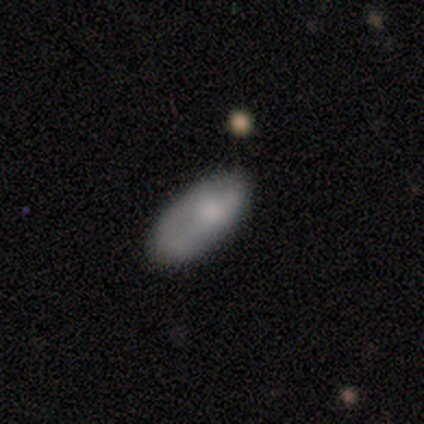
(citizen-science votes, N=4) A smooth galaxy with no disk features (75%) that is in between round and cigar-shaped (100%). Merging: none (50%, tied with minor disturbance).